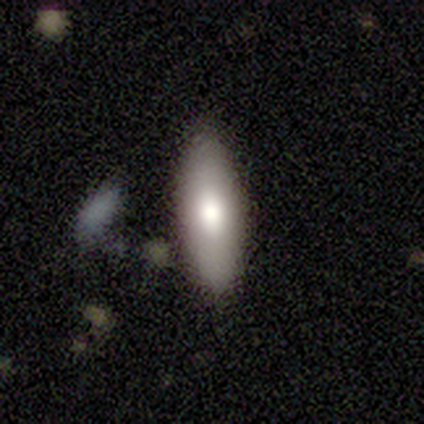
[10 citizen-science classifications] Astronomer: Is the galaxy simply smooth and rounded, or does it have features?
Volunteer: smooth — 80%.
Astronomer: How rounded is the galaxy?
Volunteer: in between — 62%.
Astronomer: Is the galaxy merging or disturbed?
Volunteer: none — 100%.